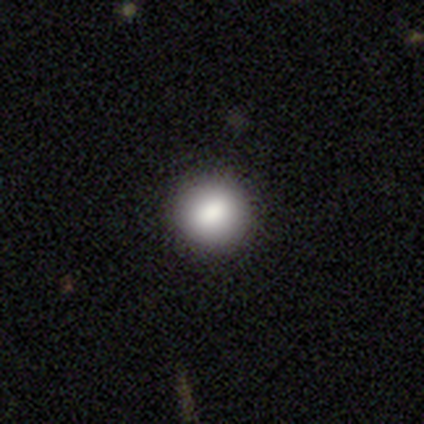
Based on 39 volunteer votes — This appears to be a smooth galaxy with no disk features (85%) that is round (91%). Merging: none (94%).